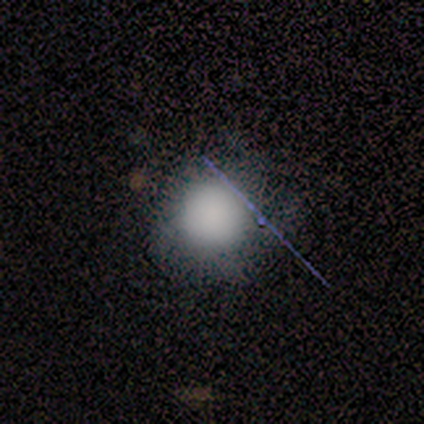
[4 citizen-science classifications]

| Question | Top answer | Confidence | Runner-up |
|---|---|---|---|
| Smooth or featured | smooth | 50% | featured or disk (25%) |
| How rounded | round | 50% | tied: in between (50%) |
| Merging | none | 67% | major disturbance (33%) |